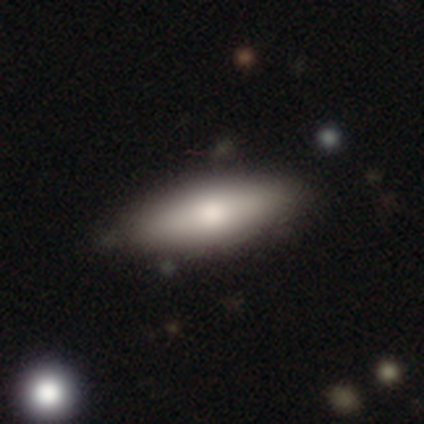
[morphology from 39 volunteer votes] This appears to be a smooth galaxy with no disk features (59%) that is in between round and cigar-shaped (70%). Merging: none (71%).